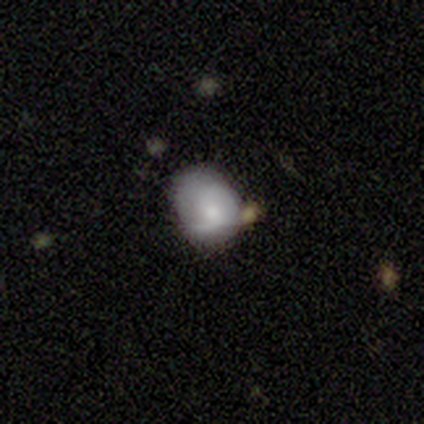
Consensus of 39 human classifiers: Overall: featured or disk (49%; smooth 46%). Edge-on disk: no (100%). Bar: no (63%; weak 32%). Spiral arms: yes (58%; no 42%). Spiral arm count: 2 (64%). Spiral winding: tight (55%; loose 27%). Bulge size: moderate (47%; small 42%). Merging: none (57%; minor disturbance 32%).